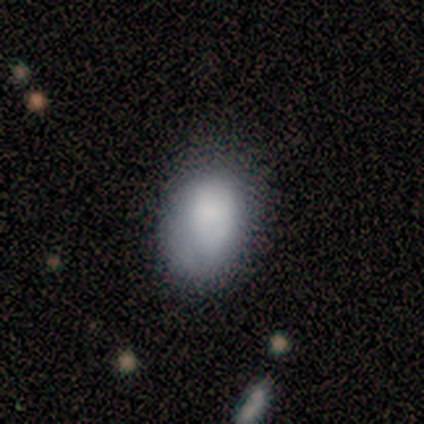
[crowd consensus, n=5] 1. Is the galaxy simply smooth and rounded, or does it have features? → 80% smooth, 20% featured or disk, 0% star or artifact.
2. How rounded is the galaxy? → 75% round, 25% in between, 0% cigar-shaped.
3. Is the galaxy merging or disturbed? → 60% none, 40% minor disturbance, 0% major disturbance, 0% merger.